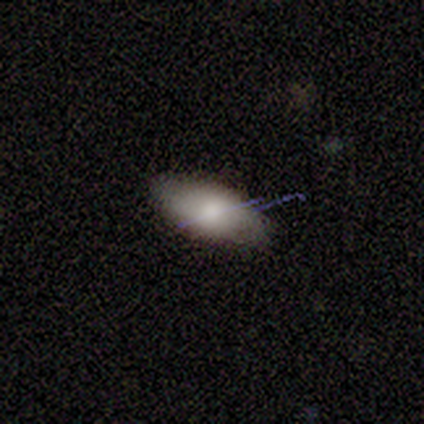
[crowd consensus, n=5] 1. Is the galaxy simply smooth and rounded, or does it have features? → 100% smooth, 0% featured or disk, 0% star or artifact.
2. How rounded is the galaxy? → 100% in between, 0% round, 0% cigar-shaped.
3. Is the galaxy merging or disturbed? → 80% none, 20% minor disturbance, 0% major disturbance, 0% merger.